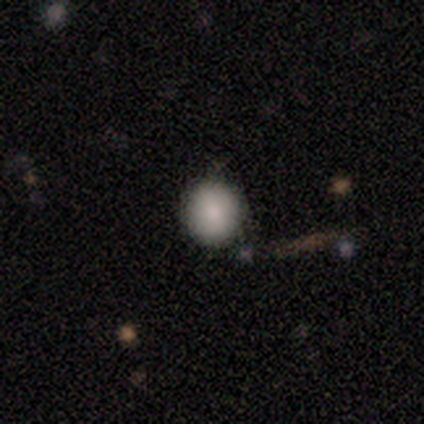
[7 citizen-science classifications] A smooth galaxy with no disk features (86%) that is round (100%). Merging: none (100%).